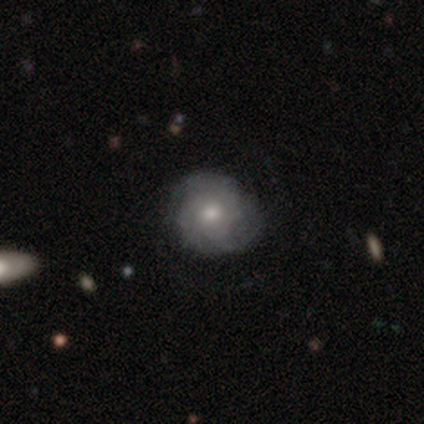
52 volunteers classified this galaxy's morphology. A featured or disk galaxy (67%) with no bar (91%), tight (59%) spiral arms (88%) and a moderate central bulge (64%).

Vote fractions:
- Smooth or featured? featured or disk: 67% / smooth: 29% / star or artifact: 4%
- Edge-on disk? no: 94% / yes: 6%
- Bar? no: 91% / weak: 6% / strong: 3%
- Spiral arms? yes: 88% / no: 12%
- Spiral winding? tight: 59% / medium: 31% / loose: 10%
- Spiral arm count? can't tell: 38% / 2: 34% / 3: 24% / 4: 3% / 1: 0% / more than 4: 0%
- Bulge size? moderate: 64% / small: 27% / large: 6% / dominant: 3% / none: 0%
- Merging? none: 66% / minor disturbance: 22% / major disturbance: 10% / merger: 2%